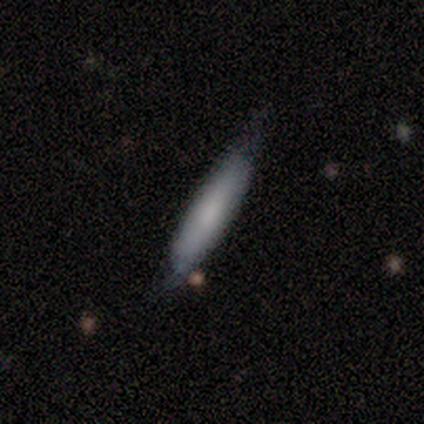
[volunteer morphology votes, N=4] smooth-or-featured: smooth: 50% (tied) | featured or disk: 50% (tied) | star or artifact: 0%
  how-rounded: in between: 50% (tied) | cigar-shaped: 50% (tied) | round: 0%
  merging: none: 50% (tied) | minor disturbance: 50% (tied) | major disturbance: 0% | merger: 0%